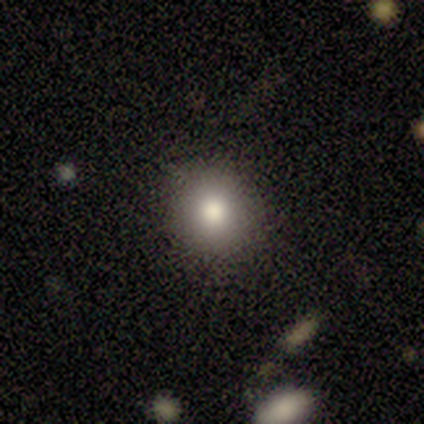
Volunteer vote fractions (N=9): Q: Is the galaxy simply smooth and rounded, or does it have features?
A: smooth — 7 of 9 (78%).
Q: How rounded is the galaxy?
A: round — 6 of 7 (86%).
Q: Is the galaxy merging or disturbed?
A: none — 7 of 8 (88%).